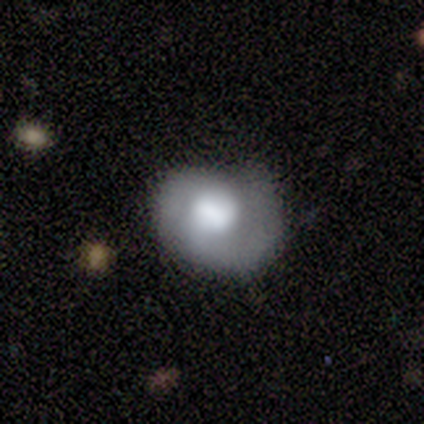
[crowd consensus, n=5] Overall: featured or disk (60%; smooth 40%). Edge-on disk: no (100%). Bar: weak (67%; no 33%). Spiral arms: yes (67%; no 33%). Spiral arm count: 2 (50%, tied with can't tell). Spiral winding: medium (50%, tied with loose). Bulge size: large (67%; small 33%). Merging: minor disturbance (100%).